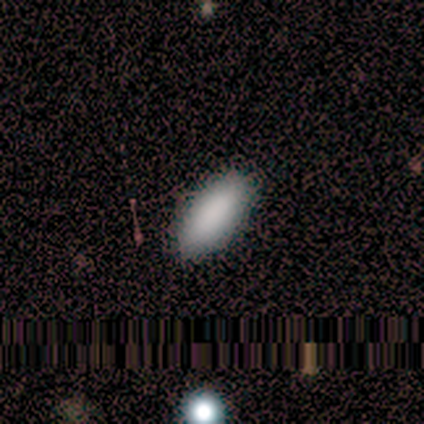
Smooth or featured?
  - smooth: 50% *
  - featured or disk: 25%
  - star or artifact: 25%
How rounded?
  - in between: 100% *
  - round: 0%
  - cigar-shaped: 0%
Merging?
  - none: 100% *
  - minor disturbance: 0%
  - major disturbance: 0%
  - merger: 0%